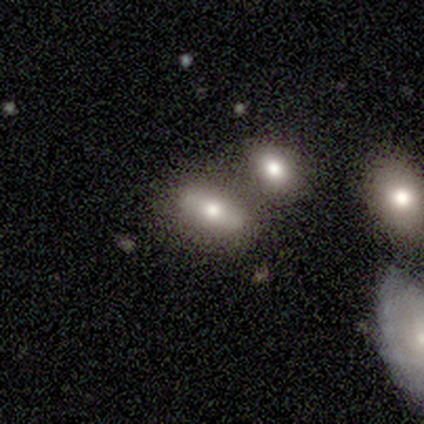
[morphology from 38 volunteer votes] Smooth or featured? 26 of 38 (68%) said smooth. How rounded? 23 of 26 (88%) said in between. Merging? 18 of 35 (51%) said none.